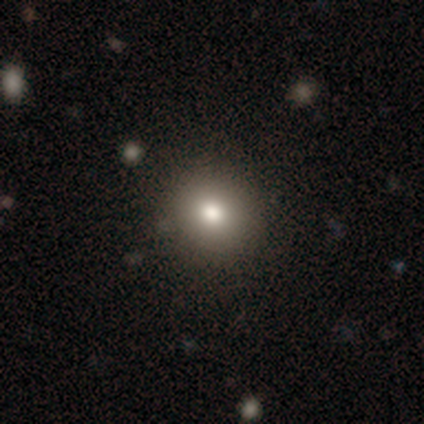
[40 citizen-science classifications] smooth 82%, star or artifact 12%, featured or disk 5%. Down the decision tree: how rounded — round (88%); merging — none (74%).